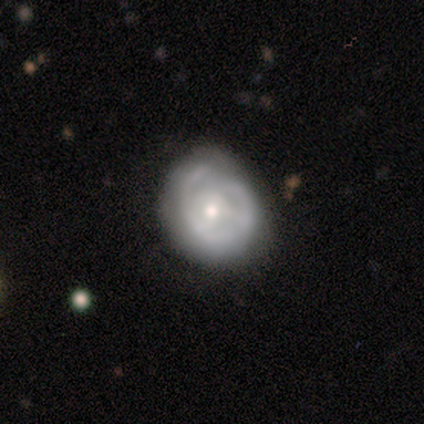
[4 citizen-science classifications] Q: Smooth or featured?
A: smooth (75%); runner-up: featured or disk (25%)
Q: How rounded?
A: round (100%)
Q: Merging?
A: none (50%); tied with: minor disturbance (50%)